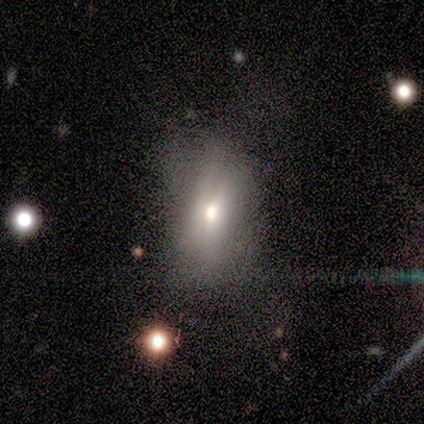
Smooth or featured? 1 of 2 (50%, tied with star or artifact) said featured or disk. Edge-on disk? 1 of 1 (100%) said no. Bar? 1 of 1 (100%) said no. Spiral arms? 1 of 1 (100%) said no. Bulge size? 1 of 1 (100%) said small. Merging? 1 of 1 (100%) said minor disturbance.